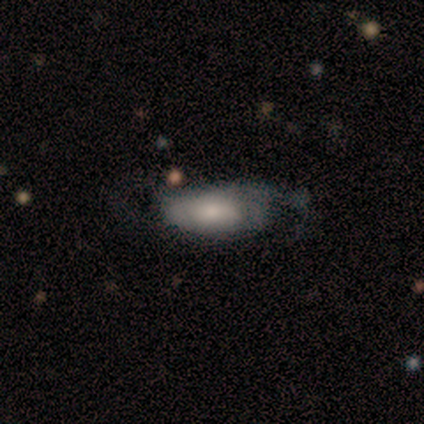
Smooth or featured?
  - smooth: 60% *
  - featured or disk: 20%
  - star or artifact: 20%
How rounded?
  - in between: 100% *
  - round: 0%
  - cigar-shaped: 0%
Merging?
  - major disturbance: 50% *
  - none: 25%
  - minor disturbance: 25%
  - merger: 0%